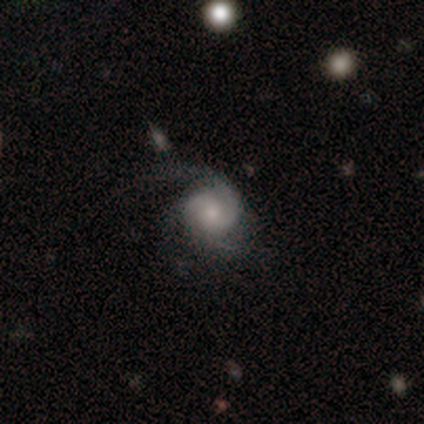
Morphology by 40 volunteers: smooth_or_featured: featured or disk (p=0.82) [alt: smooth p=0.15]
disk_edge_on: no (p=1.00)
bar: no (p=0.73) [alt: weak p=0.18]
has_spiral_arms: yes (p=1.00)
spiral_winding: medium (p=0.48) [alt: tight p=0.33]
spiral_arm_count: 2 (p=0.52) [alt: 3 p=0.24]
bulge_size: small (p=0.45) [alt: moderate p=0.36]
merging: none (p=0.51) [alt: major disturbance p=0.36]